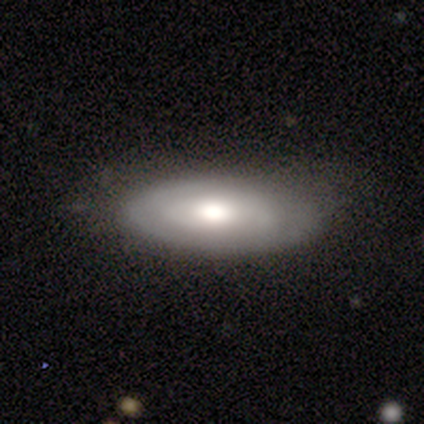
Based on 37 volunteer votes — Smooth or featured? 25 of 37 (68%) said smooth. How rounded? 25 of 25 (100%) said in between. Merging? 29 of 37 (78%) said none.